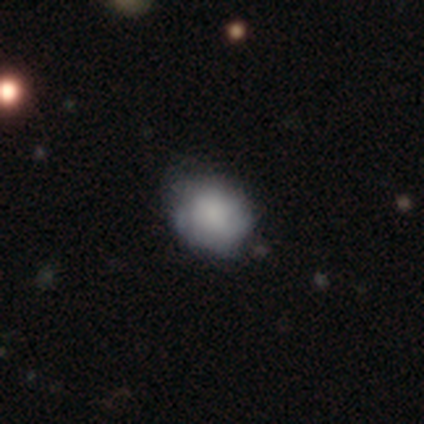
This appears to be a smooth galaxy with no disk features (60%) that is in between round and cigar-shaped (100%). Merging: none (100%).